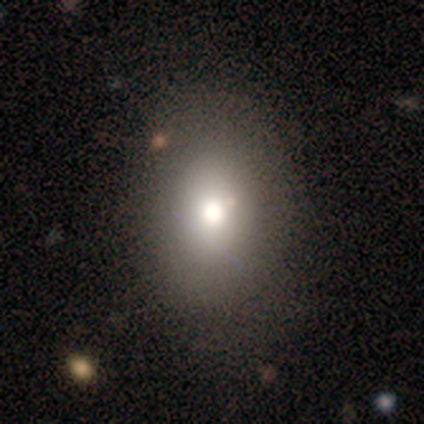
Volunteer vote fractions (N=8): smooth 75%, featured or disk 12%, star or artifact 12%. Down the decision tree: how rounded — in between (83%); merging — none (86%).